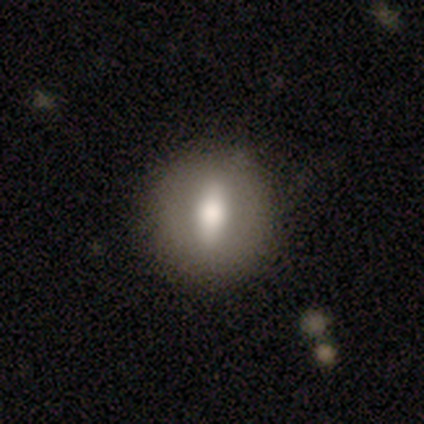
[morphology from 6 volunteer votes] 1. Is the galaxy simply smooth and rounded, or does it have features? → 83% featured or disk, 17% smooth, 0% star or artifact.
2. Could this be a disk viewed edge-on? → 80% no, 20% yes.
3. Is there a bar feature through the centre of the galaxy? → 50% no, 25% strong, 25% weak.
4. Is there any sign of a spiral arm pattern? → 100% no, 0% yes.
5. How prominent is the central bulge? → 50% large, 25% moderate, 25% none, 0% dominant, 0% small.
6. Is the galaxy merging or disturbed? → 100% none, 0% minor disturbance, 0% major disturbance, 0% merger.